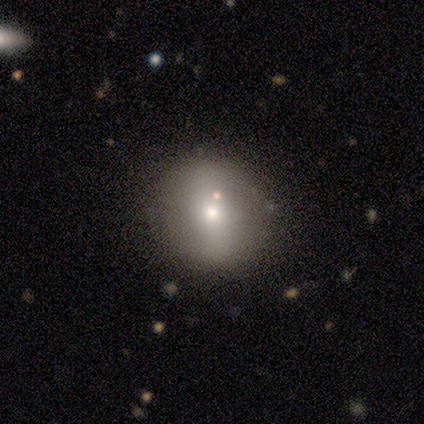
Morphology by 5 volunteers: smooth 80%, star or artifact 20%, featured or disk 0%. Down the decision tree: how rounded — round (100%); merging — none (100%).